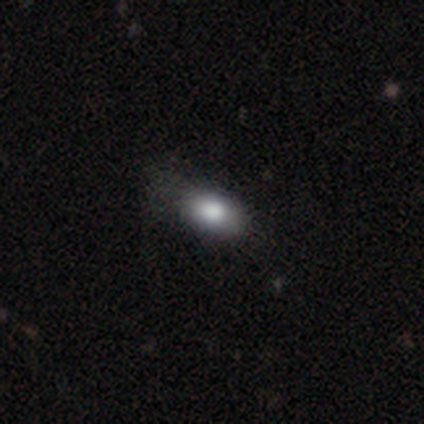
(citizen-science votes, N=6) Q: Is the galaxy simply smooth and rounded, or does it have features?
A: smooth — 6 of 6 (100%).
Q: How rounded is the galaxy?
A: in between — 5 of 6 (83%).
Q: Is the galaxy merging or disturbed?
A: none — 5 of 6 (83%).